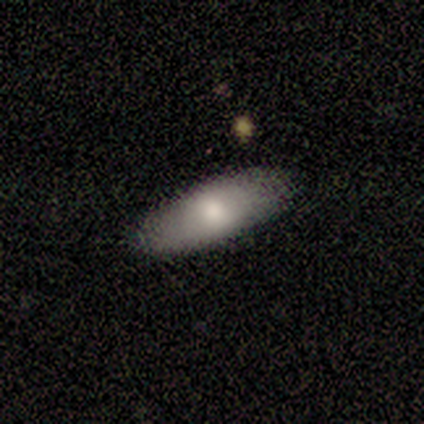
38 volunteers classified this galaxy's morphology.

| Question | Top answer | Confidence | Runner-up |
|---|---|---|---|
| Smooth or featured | smooth | 79% | featured or disk (16%) |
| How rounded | in between | 80% | cigar-shaped (20%) |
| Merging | none | 83% | minor disturbance (8%) |